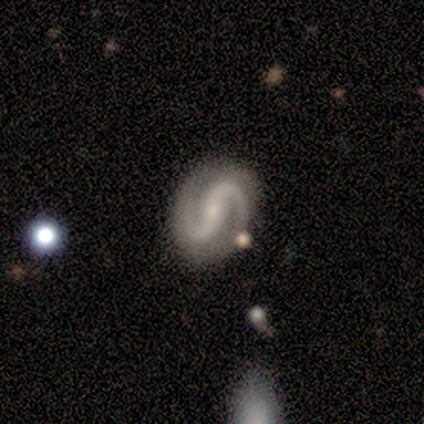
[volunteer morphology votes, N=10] smooth_or_featured: featured or disk (p=1.00)
disk_edge_on: no (p=1.00)
bar: strong (p=0.40) [alt: weak p=0.30]
has_spiral_arms: yes (p=1.00)
spiral_winding: medium (p=0.50) [alt: tight p=0.30]
spiral_arm_count: 2 (p=1.00)
bulge_size: small (p=0.90) [alt: moderate p=0.10]
merging: none (p=0.80) [alt: minor disturbance p=0.10]